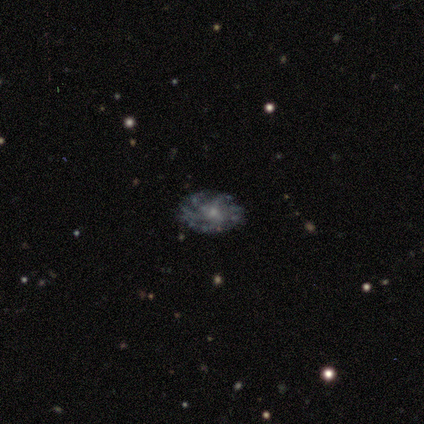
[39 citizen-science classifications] smooth_or_featured: featured or disk (p=0.79) [alt: smooth p=0.10]
disk_edge_on: no (p=1.00)
bar: no (p=0.87) [alt: weak p=0.13]
has_spiral_arms: yes (p=0.77) [alt: no p=0.23]
spiral_winding: tight (p=0.50) [alt: loose p=0.29]
spiral_arm_count: more than 4 (p=0.50) [alt: can't tell p=0.29]
bulge_size: small (p=0.68) [alt: moderate p=0.32]
merging: none (p=0.74) [alt: major disturbance p=0.14]